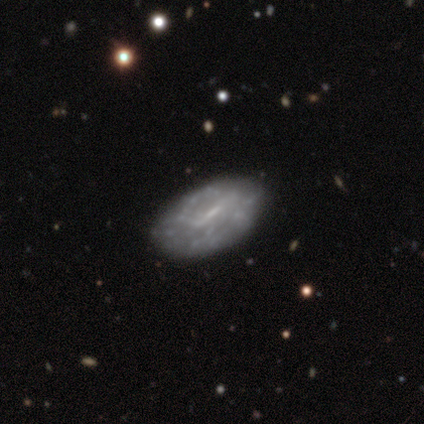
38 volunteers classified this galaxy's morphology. featured or disk 58%, smooth 29%, star or artifact 13%. Down the decision tree: edge-on disk — no (95%); bar — weak (38%); spiral arms — no (71%); bulge size — none (52%); merging — none (76%).